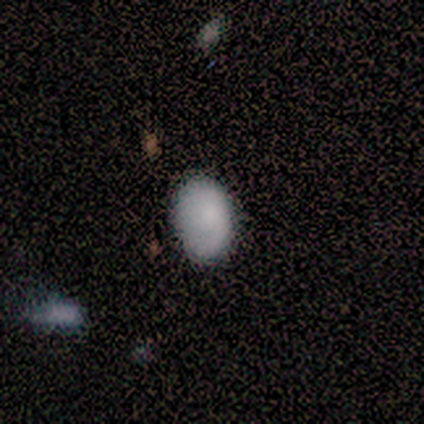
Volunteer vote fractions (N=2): This is clearly a smooth galaxy (100%). How rounded: clearly in between (100%). Merging: clearly none (100%).